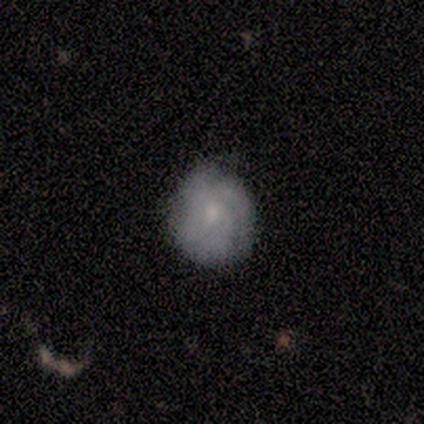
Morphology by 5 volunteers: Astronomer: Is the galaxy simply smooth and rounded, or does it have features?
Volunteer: smooth — 40%, tied with featured or disk at 40%.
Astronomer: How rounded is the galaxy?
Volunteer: round — 50%, tied with in between at 50%.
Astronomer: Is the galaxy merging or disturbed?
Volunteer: none — 75%.